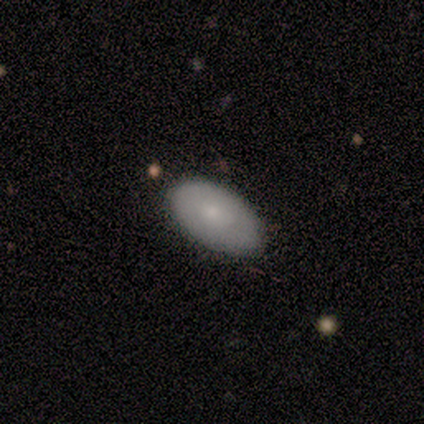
Morphology: type=smooth (100%); roundness=in between (100%); merging=none (80%).